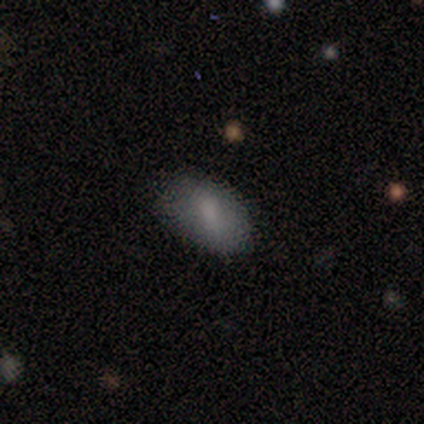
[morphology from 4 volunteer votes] Smooth or featured?
  - smooth: 75% *
  - featured or disk: 25%
  - star or artifact: 0%
How rounded?
  - in between: 67% *
  - cigar-shaped: 33%
  - round: 0%
Merging?
  - none: 75% *
  - minor disturbance: 25%
  - major disturbance: 0%
  - merger: 0%